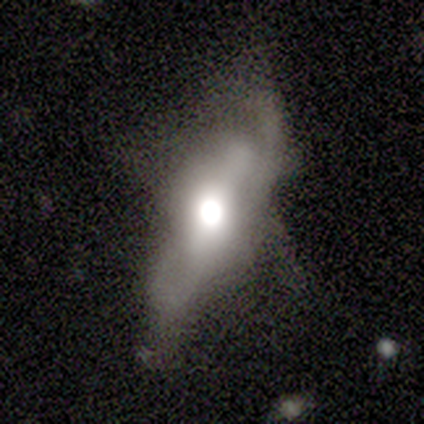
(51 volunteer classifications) Overall: featured or disk (63%; smooth 27%). Edge-on disk: no (53%; yes 47%). Bar: no (71%). Spiral arms: yes (59%; no 41%). Spiral arm count: can't tell (70%). Spiral winding: medium (50%; loose 40%). Bulge size: large (41%; moderate 35%). Merging: major disturbance (39%; none 37%).